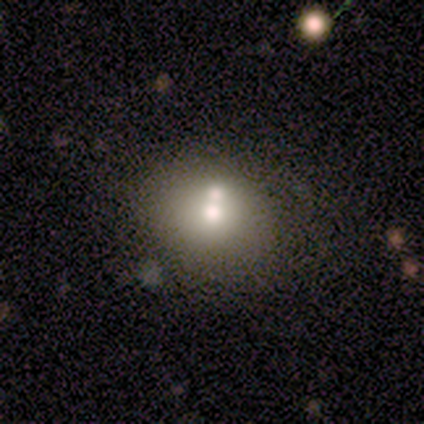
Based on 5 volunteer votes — Volunteers were most divided on "smooth or featured" (2-way tie): featured or disk: 40%, star or artifact: 40%, smooth: 20%; "bulge size" (2-way tie): moderate: 50%, small: 50%, dominant: 0%, large: 0%, none: 0%. More confident: edge-on disk — no (100%); bar — no (100%); spiral arms — no (100%); merging — merger (100%).